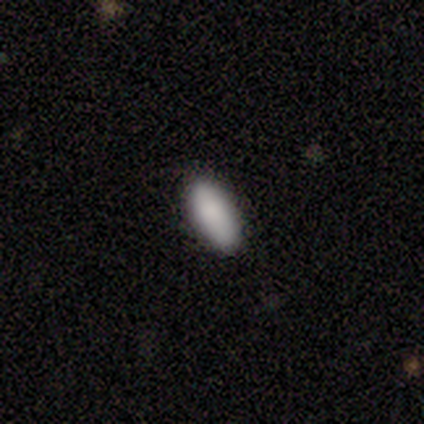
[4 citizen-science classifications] Smooth or featured? smooth (75%)
How rounded? cigar-shaped (67%)
Merging? none (50%)